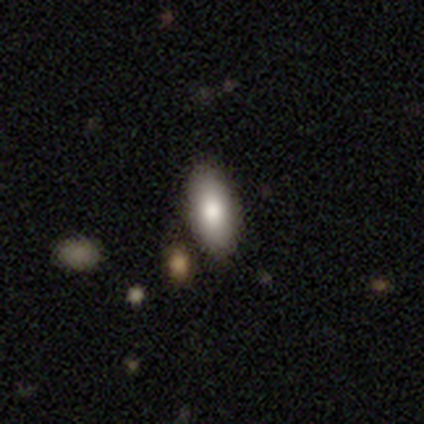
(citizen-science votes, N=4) Consensus on every question: smooth or featured — smooth (100%); how rounded — in between (100%); merging — none (100%).